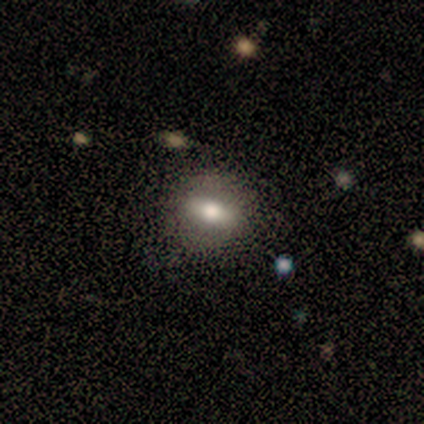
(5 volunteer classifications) This is clearly a smooth galaxy (80%). How rounded: clearly in between (100%). Merging: clearly none (80%).